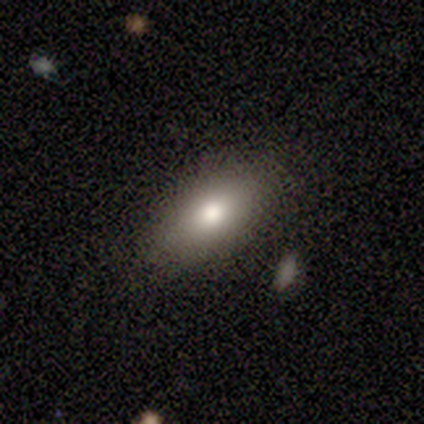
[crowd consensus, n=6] This appears to be a smooth galaxy with no disk features (83%) that is in between round and cigar-shaped (100%). Merging: none (80%).